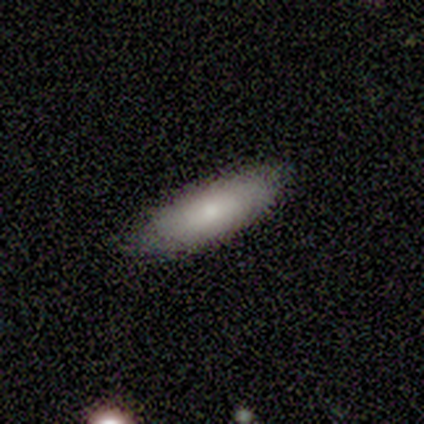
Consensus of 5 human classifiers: This appears to be a smooth galaxy with no disk features (40%, tied with featured or disk) that is in between round and cigar-shaped (100%). Merging: minor disturbance (75%).